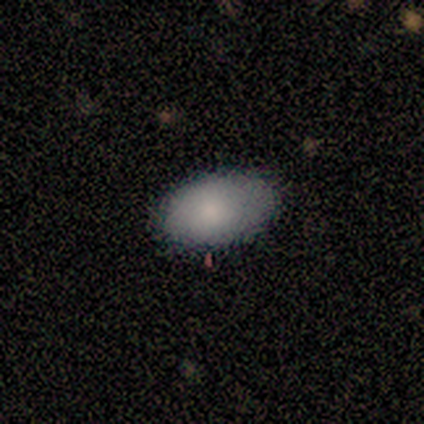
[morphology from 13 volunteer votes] Smooth or featured? smooth (100%)
How rounded? in between (100%)
Merging? none (69%)